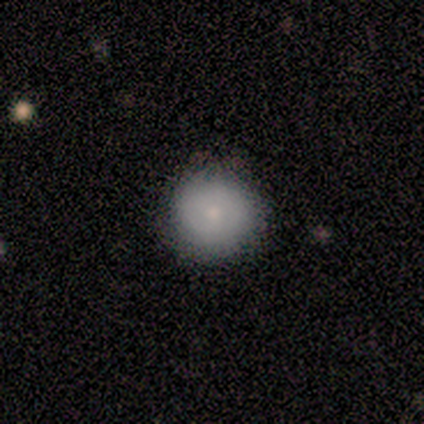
smooth 100%, featured or disk 0%, star or artifact 0%. Down the decision tree: how rounded — round (100%); merging — none (60%).